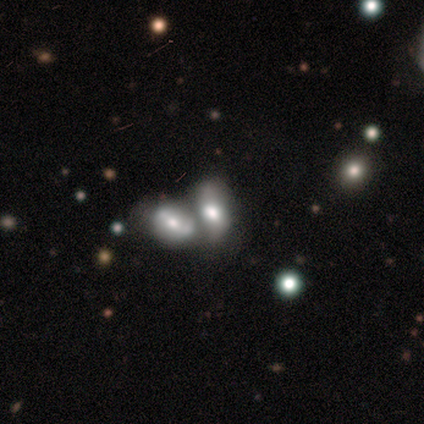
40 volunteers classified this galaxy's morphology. This appears to be a smooth galaxy with no disk features (52%) that is in between round and cigar-shaped (86%). Merging: merger (79%).